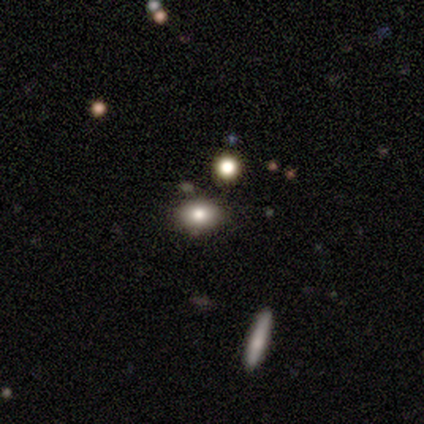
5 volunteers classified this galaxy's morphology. A smooth galaxy with no disk features (100%) that is round (80%).

Vote fractions:
- Smooth or featured? smooth: 100% / featured or disk: 0% / star or artifact: 0%
- How rounded? round: 80% / in between: 20% / cigar-shaped: 0%
- Merging? none: 80% / minor disturbance: 20% / major disturbance: 0% / merger: 0%